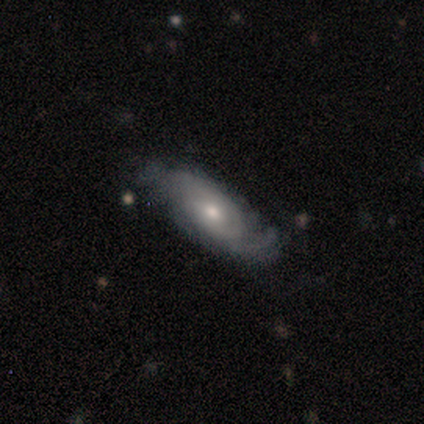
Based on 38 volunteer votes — smooth_or_featured: featured or disk (p=0.63) [alt: smooth p=0.34]
disk_edge_on: no (p=1.00)
bar: no (p=0.67) [alt: weak p=0.29]
has_spiral_arms: yes (p=0.88) [alt: no p=0.12]
spiral_winding: medium (p=0.43) [alt: tight p=0.38]
spiral_arm_count: 2 (p=0.52) [alt: can't tell p=0.24]
bulge_size: small (p=0.50) [alt: moderate p=0.46]
merging: none (p=0.76) [alt: minor disturbance p=0.19]